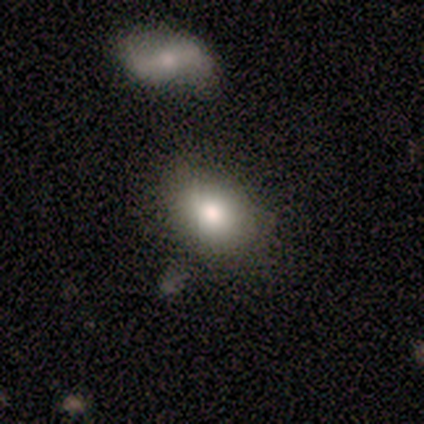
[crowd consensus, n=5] smooth-or-featured: smooth: 100% | featured or disk: 0% | star or artifact: 0%
  how-rounded: in between: 100% | round: 0% | cigar-shaped: 0%
  merging: none: 60% | minor disturbance: 40% | major disturbance: 0% | merger: 0%